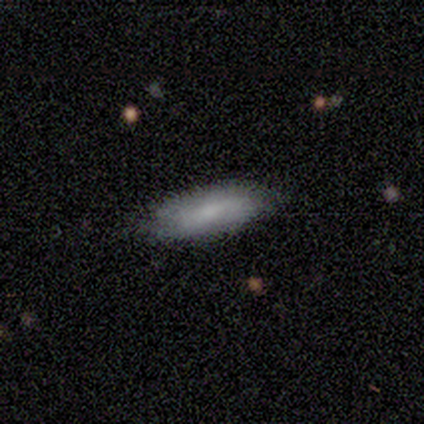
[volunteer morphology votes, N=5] Smooth or featured? 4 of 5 (80%) said smooth. How rounded? 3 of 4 (75%) said in between. Merging? 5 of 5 (100%) said none.